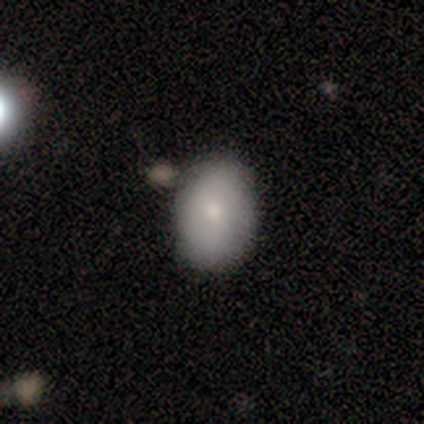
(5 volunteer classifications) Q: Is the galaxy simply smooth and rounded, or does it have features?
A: smooth — 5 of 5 (100%).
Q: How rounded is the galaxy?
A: in between — 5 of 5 (100%).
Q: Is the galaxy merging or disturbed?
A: none — 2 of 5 (40%, tied with merger).